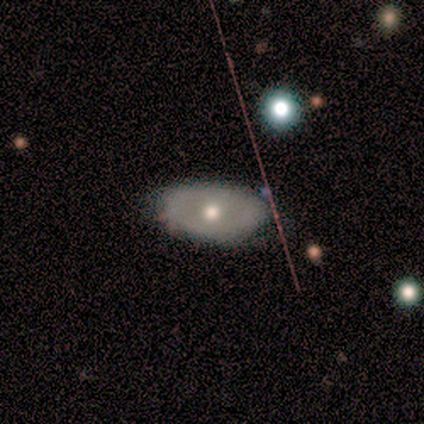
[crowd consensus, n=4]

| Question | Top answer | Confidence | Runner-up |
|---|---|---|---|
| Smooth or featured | featured or disk | 75% | star or artifact (25%) |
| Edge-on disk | no | 100% | — |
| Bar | no | 100% | — |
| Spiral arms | no | 100% | — |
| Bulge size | moderate | 100% | — |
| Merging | none | 67% | minor disturbance (33%) |